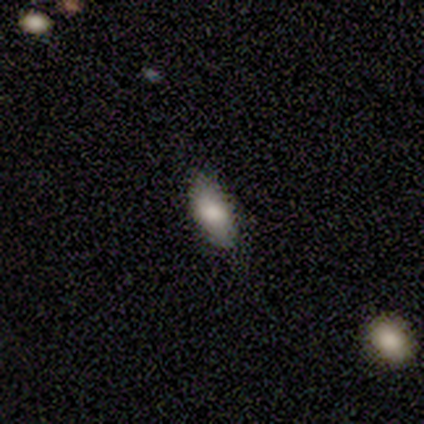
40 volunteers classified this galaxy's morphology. smooth 82%, featured or disk 10%, star or artifact 8%. Down the decision tree: how rounded — in between (94%); merging — none (92%).